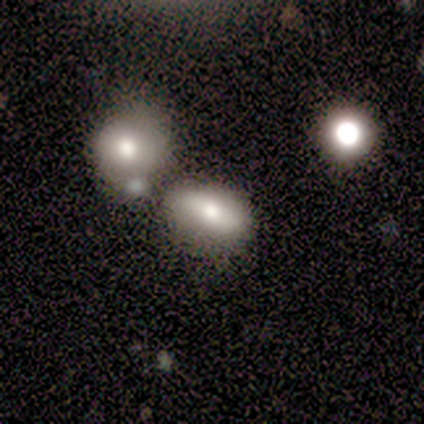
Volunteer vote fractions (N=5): Overall: smooth (60%; featured or disk 20%). How rounded: in between (100%). Merging: merger (50%; none 25%).